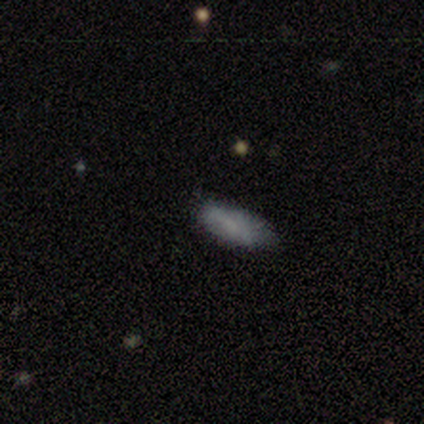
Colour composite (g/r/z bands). It shows a smooth galaxy with no disk features (78%) that is in between round and cigar-shaped (86%). Merging: none (78%).